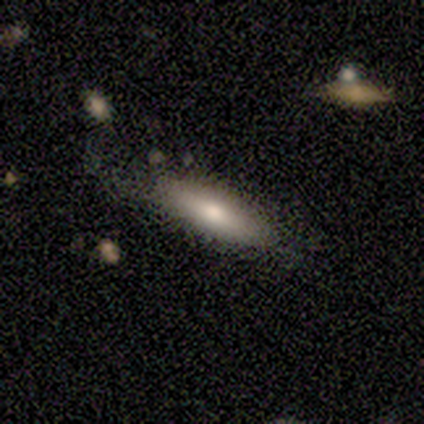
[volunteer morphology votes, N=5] A smooth galaxy with no disk features (60%) that is cigar-shaped (100%).

Vote fractions:
- Smooth or featured? smooth: 60% / featured or disk: 40% / star or artifact: 0%
- How rounded? cigar-shaped: 100% / round: 0% / in between: 0%
- Merging? none: 80% / major disturbance: 20% / minor disturbance: 0% / merger: 0%